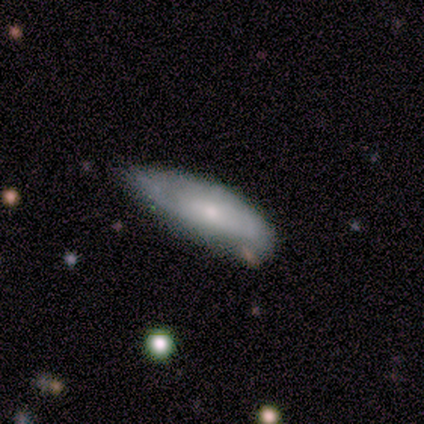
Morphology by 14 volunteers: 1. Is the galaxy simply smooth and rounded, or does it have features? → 79% smooth, 21% featured or disk, 0% star or artifact.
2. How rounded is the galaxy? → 73% in between, 27% cigar-shaped, 0% round.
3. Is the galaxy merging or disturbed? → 64% minor disturbance, 14% none, 14% major disturbance, 7% merger.